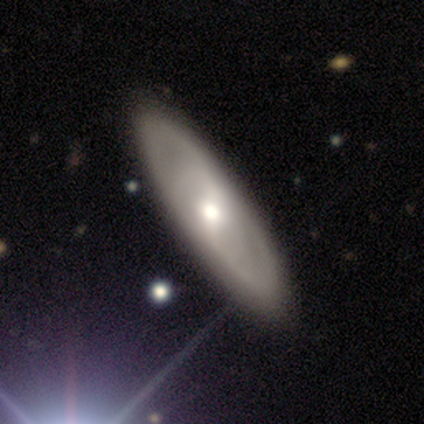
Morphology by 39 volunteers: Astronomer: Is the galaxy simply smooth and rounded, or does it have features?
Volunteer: featured or disk — 56% (runner-up: smooth, 38%).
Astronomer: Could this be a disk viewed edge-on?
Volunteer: no — 82%.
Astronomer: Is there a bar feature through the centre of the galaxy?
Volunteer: weak — 50% (runner-up: strong, 44%).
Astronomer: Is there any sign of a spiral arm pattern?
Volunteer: yes — 61% (runner-up: no, 39%).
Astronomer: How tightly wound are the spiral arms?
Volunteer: medium — 36%, tied with loose at 36%.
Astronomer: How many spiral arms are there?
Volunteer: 2 — 73%.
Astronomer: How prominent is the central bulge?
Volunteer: moderate — 72%.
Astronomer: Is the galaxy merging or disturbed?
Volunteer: none — 89%.